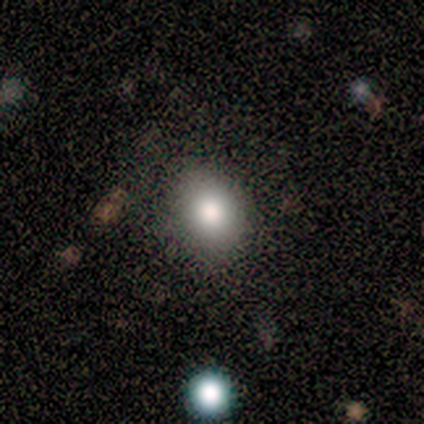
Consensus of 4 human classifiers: smooth-or-featured: smooth: 100% | featured or disk: 0% | star or artifact: 0%
  how-rounded: round: 75% | in between: 25% | cigar-shaped: 0%
  merging: none: 100% | minor disturbance: 0% | major disturbance: 0% | merger: 0%